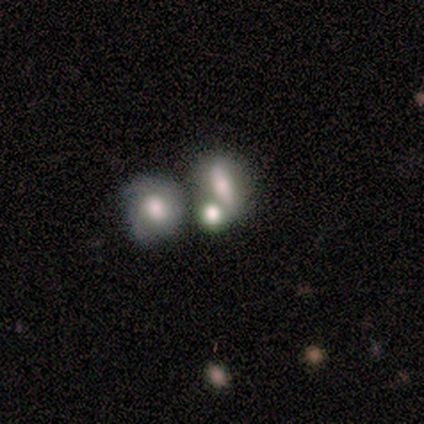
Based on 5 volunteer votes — Smooth or featured? smooth (60%)
How rounded? in between (67%)
Merging? none (80%)